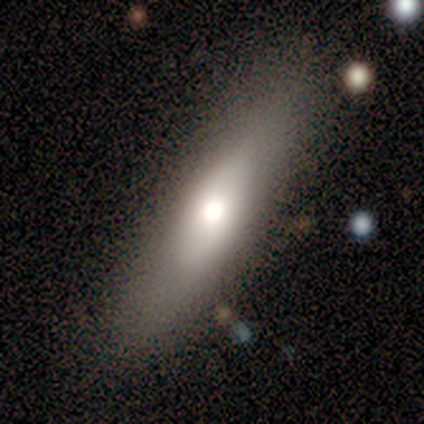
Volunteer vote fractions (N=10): smooth-or-featured: smooth: 60% | featured or disk: 30% | star or artifact: 10%
  how-rounded: cigar-shaped: 67% | round: 17% | in between: 17%
  merging: none: 78% | minor disturbance: 11% | merger: 11% | major disturbance: 0%